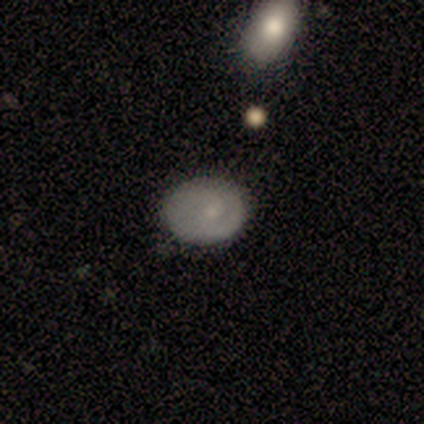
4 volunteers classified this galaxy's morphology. A smooth galaxy with no disk features (75%) that is in between round and cigar-shaped (67%). Merging: none (100%).